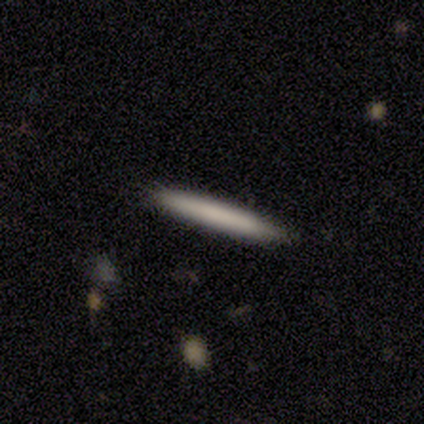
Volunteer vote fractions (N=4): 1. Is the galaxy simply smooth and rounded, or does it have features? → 75% smooth, 25% featured or disk, 0% star or artifact.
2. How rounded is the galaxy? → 100% cigar-shaped, 0% round, 0% in between.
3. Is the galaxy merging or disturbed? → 50% none (tied), 50% minor disturbance (tied), 0% major disturbance, 0% merger.